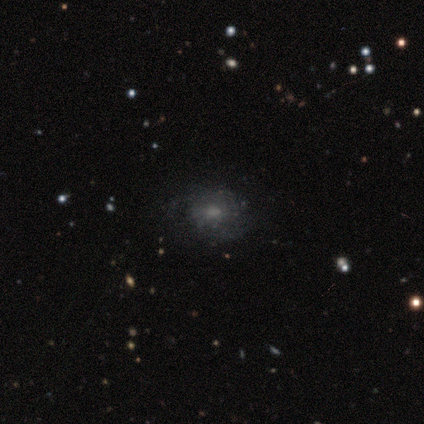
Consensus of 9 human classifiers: Volunteers were most divided on "spiral arms" (2-way tie): yes: 50%, no: 50%; "bulge size" (2-way tie): moderate: 50%, small: 50%, dominant: 0%, large: 0%, none: 0%. More confident: spiral winding — tight (100%); spiral arm count — can't tell (100%); edge-on disk — no (80%); bar — no (75%); merging — none (62%); smooth or featured — featured or disk (56%).